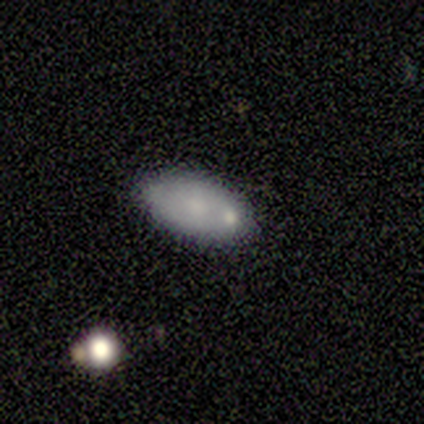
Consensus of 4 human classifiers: smooth_or_featured: smooth (p=1.00)
how_rounded: in between (p=1.00)
merging: none (p=0.75) [alt: minor disturbance p=0.25]